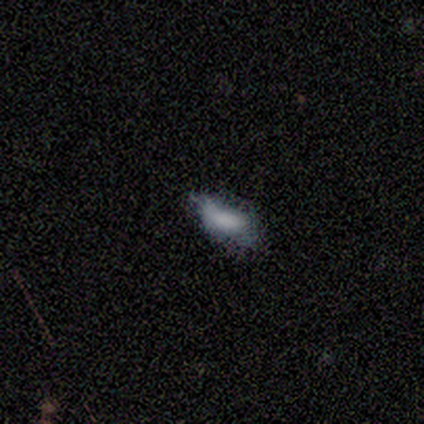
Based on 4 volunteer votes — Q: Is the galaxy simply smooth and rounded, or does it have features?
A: smooth — 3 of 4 (75%).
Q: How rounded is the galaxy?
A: in between — 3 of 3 (100%).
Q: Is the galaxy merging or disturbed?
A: none — 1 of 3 (33%, tied with minor disturbance and major disturbance).